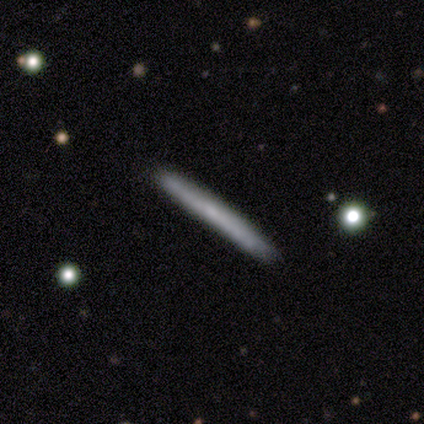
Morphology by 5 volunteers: smooth_or_featured: smooth (p=0.60) [alt: featured or disk p=0.40]
how_rounded: cigar-shaped (p=1.00)
merging: none (p=0.80) [alt: minor disturbance p=0.20]